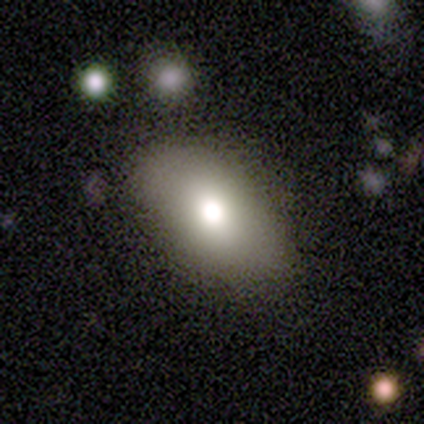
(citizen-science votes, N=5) This is clearly a smooth galaxy (80%). How rounded: clearly in between (100%). Merging: clearly none (100%).